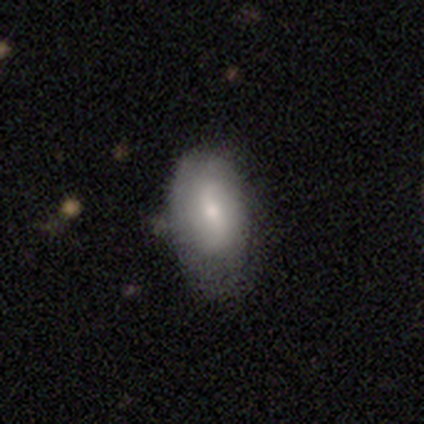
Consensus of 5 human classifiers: This is likely a featured or disk galaxy (60%). It is clearly not viewed edge-on (100%). Bar: likely strong (67%). Spiral arm pattern: likely no (67%). Central bulge: likely moderate (67%). Merging: clearly none (80%).